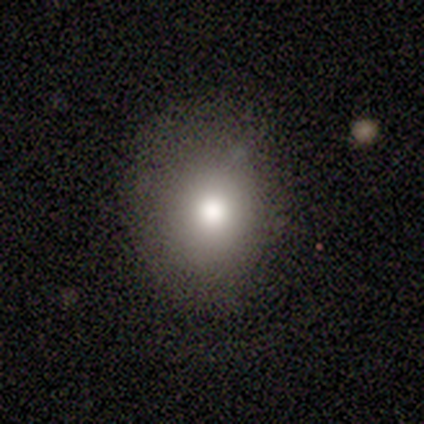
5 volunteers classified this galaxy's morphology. This is clearly a smooth galaxy (80%). How rounded: likely round (75%). Merging: clearly none (80%).